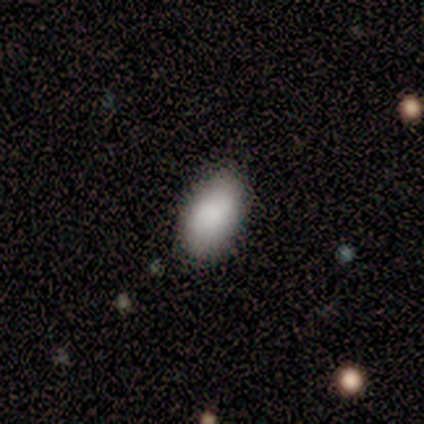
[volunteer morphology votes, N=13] smooth-or-featured: smooth: 92% | star or artifact: 8% | featured or disk: 0%
  how-rounded: in between: 100% | round: 0% | cigar-shaped: 0%
  merging: none: 92% | minor disturbance: 8% | major disturbance: 0% | merger: 0%